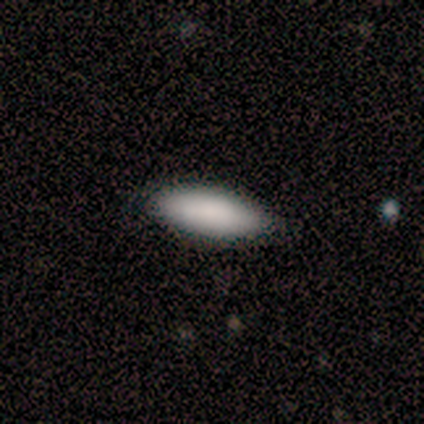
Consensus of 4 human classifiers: A smooth galaxy with no disk features (100%) that is in between round and cigar-shaped (75%). Merging: none (50%, tied with minor disturbance).